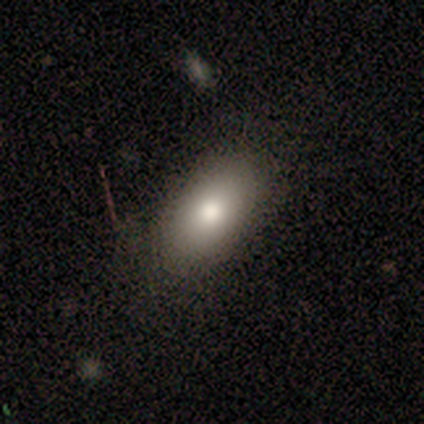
smooth_or_featured: smooth (p=0.71) [alt: featured or disk p=0.29]
how_rounded: in between (p=1.00)
merging: none (p=1.00)